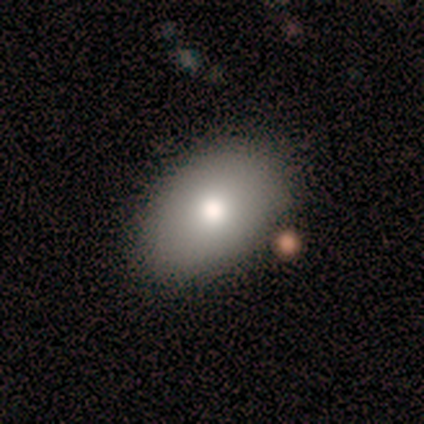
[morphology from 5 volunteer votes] A smooth galaxy with no disk features (100%) that is in between round and cigar-shaped (80%). Merging: none (100%).